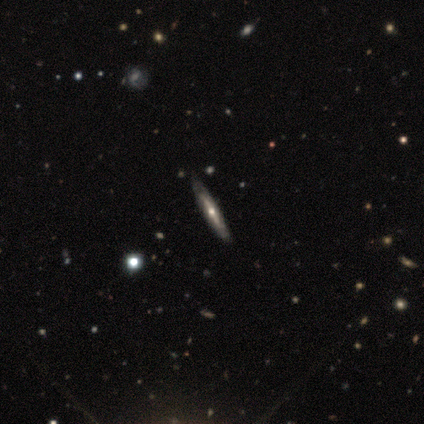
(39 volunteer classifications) A featured or disk galaxy (74%) viewed edge-on (79%) with a rounded central bulge (78%). Merging: none (58%).